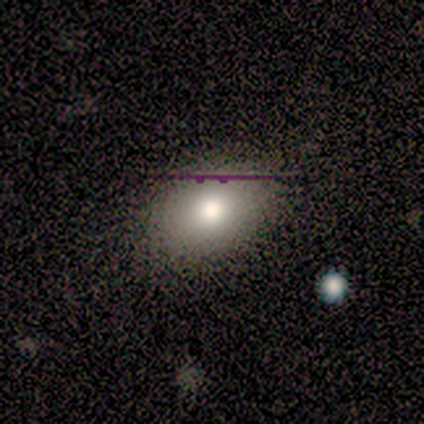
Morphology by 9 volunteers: Smooth or featured? 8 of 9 (89%) said smooth. How rounded? 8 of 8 (100%) said in between. Merging? 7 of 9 (78%) said none.